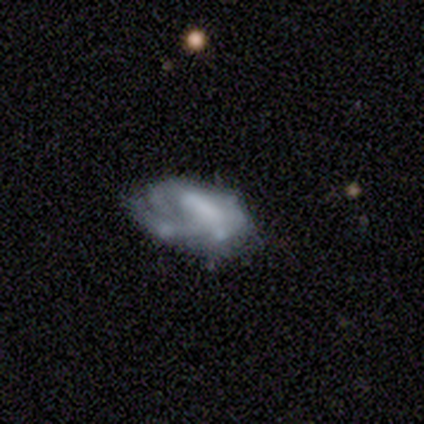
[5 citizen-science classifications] Smooth or featured? featured or disk (80%)
Edge-on disk? no (100%)
Bar? weak (75%)
Spiral arms? yes (75%)
Spiral winding? tight (33%, tied with medium and loose)
Spiral arm count? can't tell (67%)
Bulge size? moderate (50%)
Merging? minor disturbance (80%)